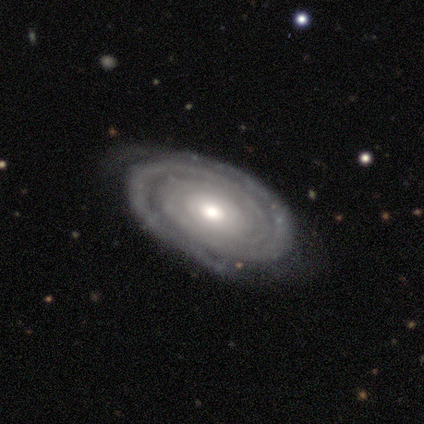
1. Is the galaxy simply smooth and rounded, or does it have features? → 80% featured or disk, 20% star or artifact, 0% smooth.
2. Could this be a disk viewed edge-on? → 75% no, 25% yes.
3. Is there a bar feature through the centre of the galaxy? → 67% no, 33% weak, 0% strong.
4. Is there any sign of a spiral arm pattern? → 100% yes, 0% no.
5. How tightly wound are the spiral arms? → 67% tight, 33% loose, 0% medium.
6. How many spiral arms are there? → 67% can't tell, 33% 3, 0% 1, 0% 2, 0% 4, 0% more than 4.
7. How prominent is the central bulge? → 67% small, 33% moderate, 0% dominant, 0% large, 0% none.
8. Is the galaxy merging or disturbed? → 100% none, 0% minor disturbance, 0% major disturbance, 0% merger.